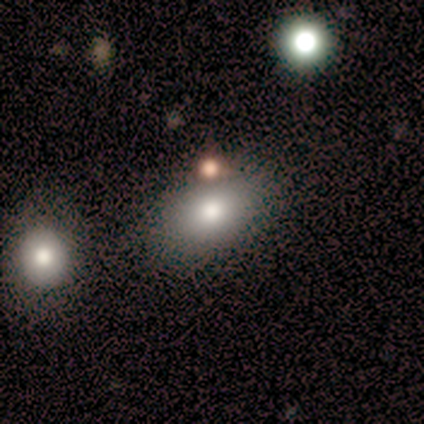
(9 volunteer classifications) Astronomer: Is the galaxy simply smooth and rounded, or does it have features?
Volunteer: smooth — 78%.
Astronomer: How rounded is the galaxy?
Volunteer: in between — 86%.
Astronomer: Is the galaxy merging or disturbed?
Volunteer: none — 100%.